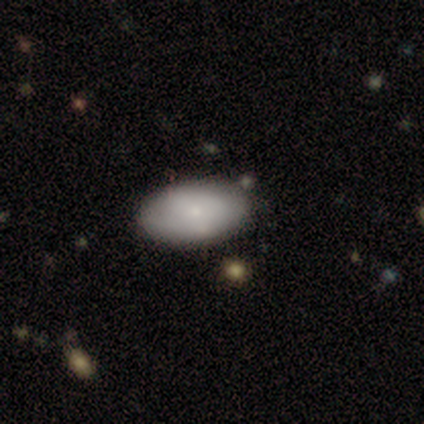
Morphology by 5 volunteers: A smooth galaxy with no disk features (100%) that is in between round and cigar-shaped (100%).

Vote fractions:
- Smooth or featured? smooth: 100% / featured or disk: 0% / star or artifact: 0%
- How rounded? in between: 100% / round: 0% / cigar-shaped: 0%
- Merging? none: 60% / minor disturbance: 20% / major disturbance: 20% / merger: 0%